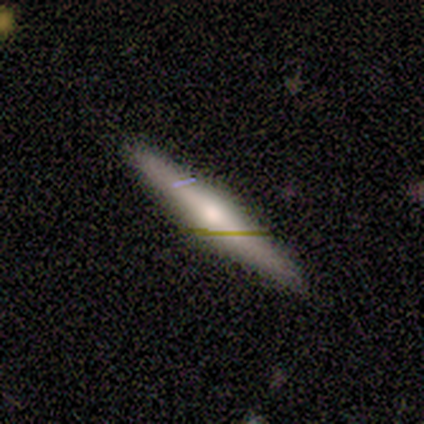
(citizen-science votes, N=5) smooth-or-featured: featured or disk: 60% | smooth: 40% | star or artifact: 0%
  disk-edge-on: yes: 100% | no: 0%
    edge-on-bulge: rounded: 100% | boxy: 0% | none: 0%
  merging: none: 80% | minor disturbance: 20% | major disturbance: 0% | merger: 0%